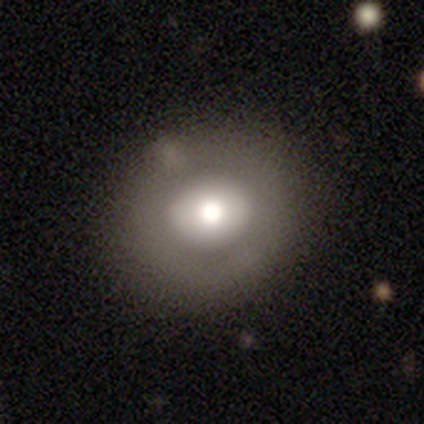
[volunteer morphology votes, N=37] Smooth or featured? 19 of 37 (51%) said featured or disk. Edge-on disk? 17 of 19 (89%) said no. Bar? 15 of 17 (88%) said no. Spiral arms? 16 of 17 (94%) said no. Bulge size? 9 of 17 (53%) said moderate. Merging? 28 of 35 (80%) said none.